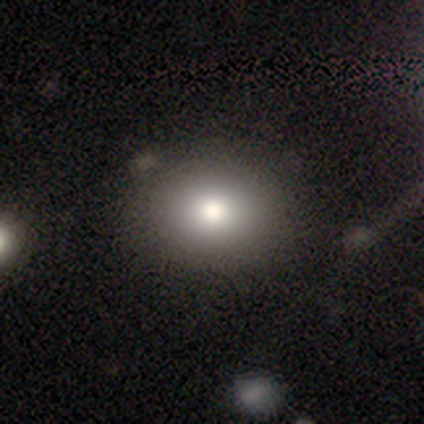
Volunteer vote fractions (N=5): Overall: smooth (80%). How rounded: in between (75%). Merging: none (100%).